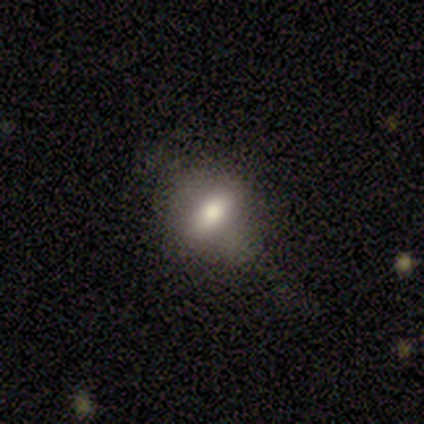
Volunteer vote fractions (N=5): Smooth or featured?
  - smooth: 80% *
  - star or artifact: 20%
  - featured or disk: 0%
How rounded?
  - in between: 100% *
  - round: 0%
  - cigar-shaped: 0%
Merging?
  - none: 75% *
  - minor disturbance: 25%
  - major disturbance: 0%
  - merger: 0%